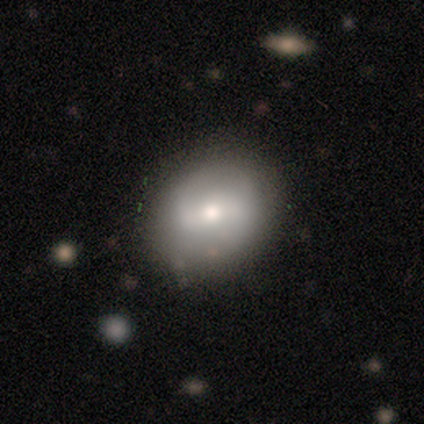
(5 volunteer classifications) Smooth or featured?
  - featured or disk: 80% *
  - smooth: 20%
  - star or artifact: 0%
Edge-on disk?
  - no: 100% *
  - yes: 0%
Bar?
  - weak: 75% *
  - no: 25%
  - strong: 0%
Spiral arms?
  - yes: 75% *
  - no: 25%
Spiral winding?
  - medium: 67% *
  - tight: 33%
  - loose: 0%
Spiral arm count?
  - 2: 67% *
  - can't tell: 33%
  - 1: 0%
  - 3: 0%
  - 4: 0%
  - more than 4: 0%
Bulge size?
  - small: 50% *
  - dominant: 25%
  - moderate: 25%
  - large: 0%
  - none: 0%
Merging?
  - none: 80% *
  - minor disturbance: 20%
  - major disturbance: 0%
  - merger: 0%